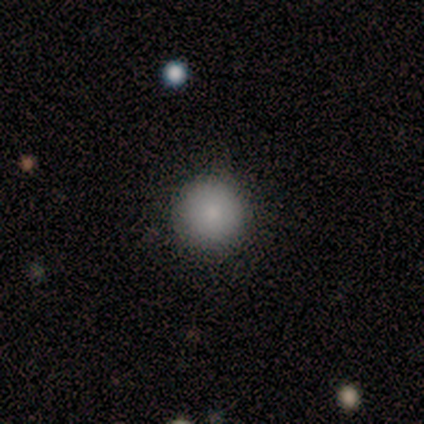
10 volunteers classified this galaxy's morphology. Smooth or featured: smooth — 90% (star or artifact — 10%)
How rounded: round — 100%
Merging: none — 100%